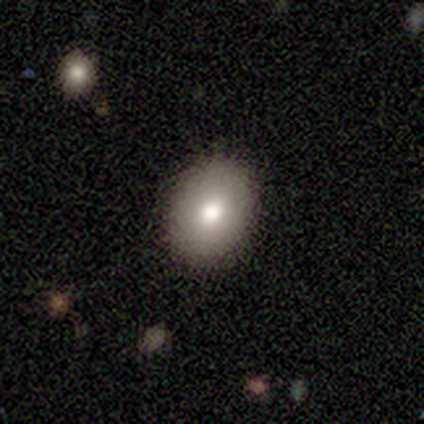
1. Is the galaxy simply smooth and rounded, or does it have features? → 75% smooth, 25% featured or disk, 0% star or artifact.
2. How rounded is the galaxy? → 67% in between, 33% round, 0% cigar-shaped.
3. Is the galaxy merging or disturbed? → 100% none, 0% minor disturbance, 0% major disturbance, 0% merger.